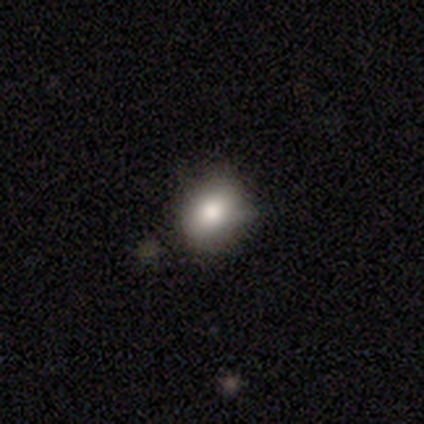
A smooth galaxy with no disk features (80%) that is round (50%, tied with in between).

Vote fractions:
- Smooth or featured? smooth: 80% / featured or disk: 20% / star or artifact: 0%
- How rounded? round: 50% (tied) / in between: 50% (tied) / cigar-shaped: 0%
- Merging? none: 60% / minor disturbance: 20% / merger: 20% / major disturbance: 0%